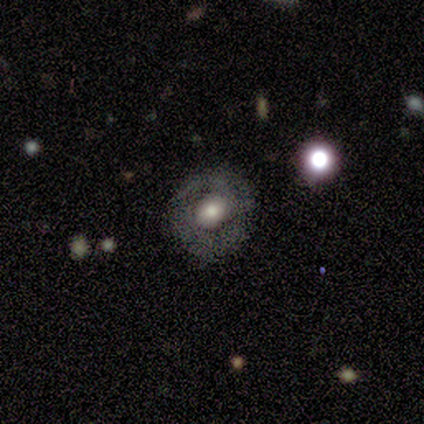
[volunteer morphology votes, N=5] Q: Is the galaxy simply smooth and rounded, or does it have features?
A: featured or disk — 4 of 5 (80%).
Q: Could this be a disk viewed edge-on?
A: no — 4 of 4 (100%).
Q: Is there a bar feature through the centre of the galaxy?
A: no — 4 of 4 (100%).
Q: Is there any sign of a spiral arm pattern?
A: no — 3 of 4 (75%).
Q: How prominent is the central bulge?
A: moderate — 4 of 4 (100%).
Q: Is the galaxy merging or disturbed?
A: none — 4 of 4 (100%).